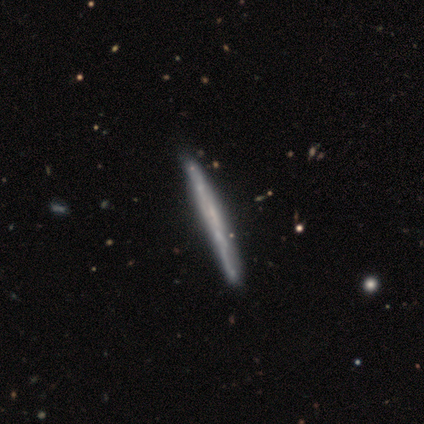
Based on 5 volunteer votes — Overall: featured or disk (60%; smooth 40%). Edge-on disk: yes (67%; no 33%). Edge-on bulge: none (100%). Merging: none (80%).